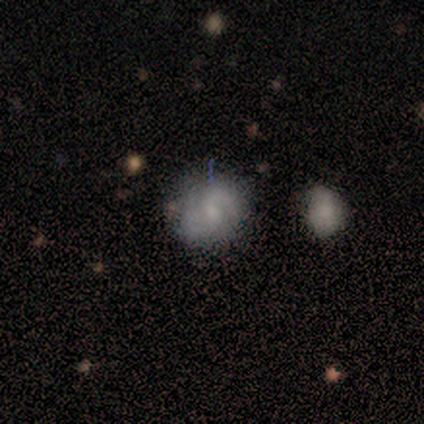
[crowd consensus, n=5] This is likely a featured or disk galaxy (60%). It is clearly not viewed edge-on (100%). Bar: marginally strong (33%, tied with weak and no). Spiral arm pattern: likely yes (67%). Spiral arm count: clearly 2 (100%). Spiral winding: clearly medium (100%). Central bulge: marginally moderate (33%, tied with small and none). Merging: likely none (60%).